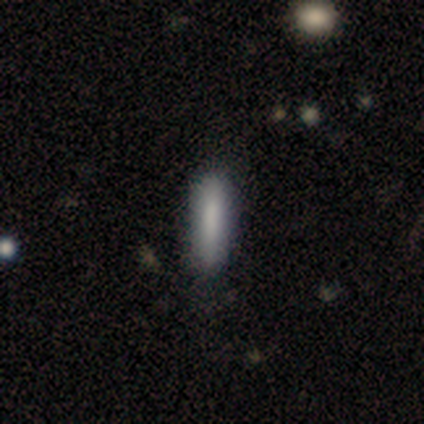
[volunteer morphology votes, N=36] Overall: smooth (72%). How rounded: cigar-shaped (85%). Merging: none (83%).